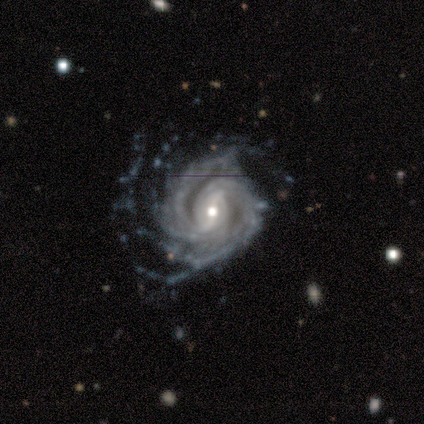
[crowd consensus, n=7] Morphology: type=featured or disk (86%); edge-on=no (100%); bar=strong (83%); spiral arms=yes (100%); winding=tight (67%); arm count=2 (33%, tied with more than 4 and can't tell); bulge=small (67%); merging=none (50%, tied with major disturbance).